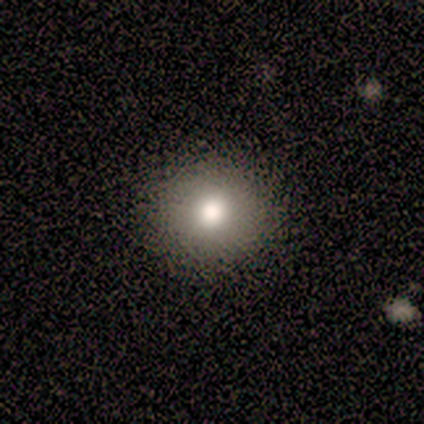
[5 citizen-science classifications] Smooth or featured? smooth (100%)
How rounded? round (100%)
Merging? none (100%)